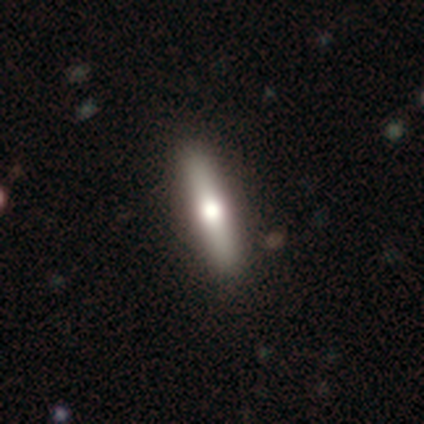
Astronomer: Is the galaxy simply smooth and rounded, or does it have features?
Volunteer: smooth — 60% (runner-up: featured or disk, 40%).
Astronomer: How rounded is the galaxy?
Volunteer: cigar-shaped — 100%.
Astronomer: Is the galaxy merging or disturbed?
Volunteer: none — 100%.